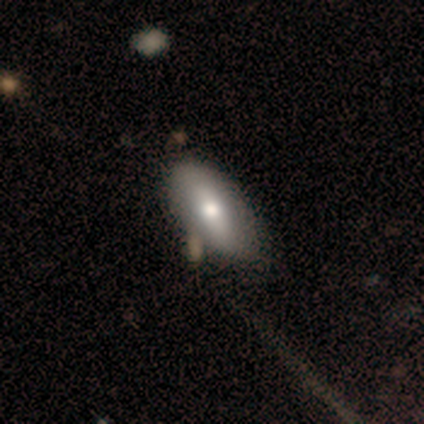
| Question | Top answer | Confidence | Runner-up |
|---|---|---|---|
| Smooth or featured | smooth | 71% | featured or disk (26%) |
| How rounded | in between | 93% | cigar-shaped (7%) |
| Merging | none | 57% | merger (14%) |